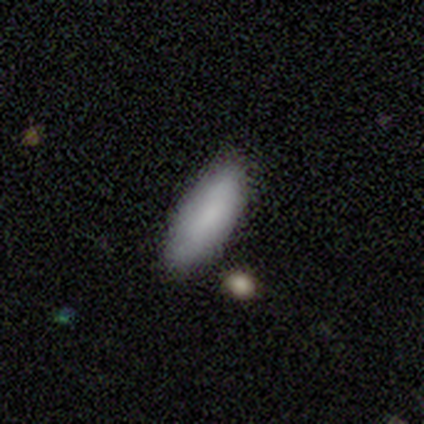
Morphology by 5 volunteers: smooth 100%, featured or disk 0%, star or artifact 0%. Down the decision tree: how rounded — in between (100%); merging — none (80%).